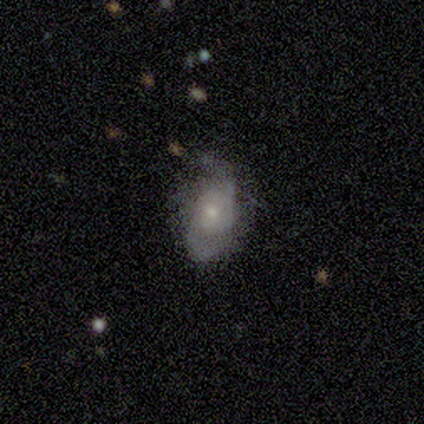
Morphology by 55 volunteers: A featured or disk galaxy (71%) with no bar (85%), 2 (88%) medium (56%) spiral arms (87%) and a moderate central bulge (54%).

Vote fractions:
- Smooth or featured? featured or disk: 71% / smooth: 24% / star or artifact: 5%
- Edge-on disk? no: 100% / yes: 0%
- Bar? no: 85% / weak: 13% / strong: 3%
- Spiral arms? yes: 87% / no: 13%
- Spiral winding? medium: 56% / tight: 24% / loose: 21%
- Spiral arm count? 2: 88% / can't tell: 6% / 3: 3% / more than 4: 3% / 1: 0% / 4: 0%
- Bulge size? moderate: 54% / small: 41% / large: 5% / dominant: 0% / none: 0%
- Merging? none: 63% / minor disturbance: 27% / major disturbance: 6% / merger: 4%